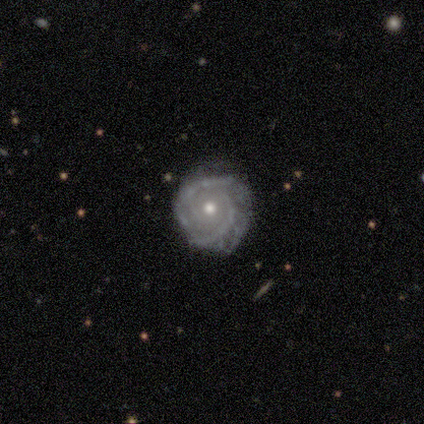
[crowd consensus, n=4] Overall: featured or disk (75%). Edge-on disk: no (67%; yes 33%). Bar: no (100%). Spiral arms: yes (100%). Spiral arm count: 2 (100%). Spiral winding: tight (100%). Bulge size: moderate (50%, tied with small). Merging: none (75%).